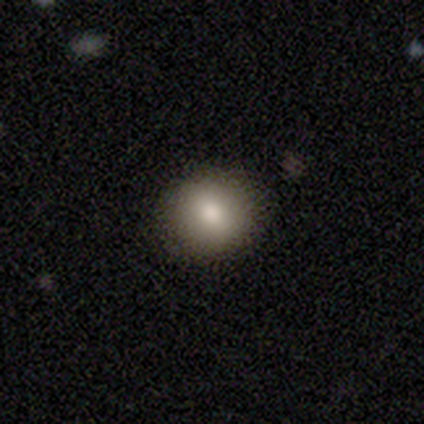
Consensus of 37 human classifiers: Overall: smooth (81%). How rounded: round (77%). Merging: none (85%).